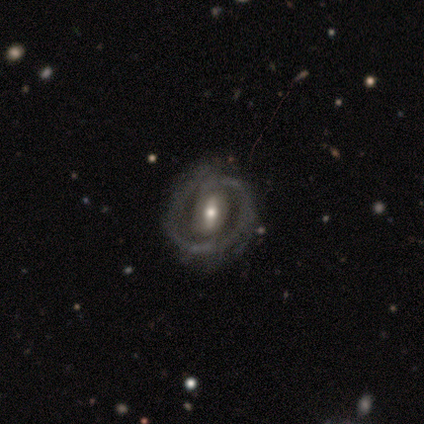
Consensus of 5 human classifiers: A featured or disk galaxy (100%) with a strong bar (60%), 1 (40%, tied with 2) tight (60%) spiral arms (100%) and a moderate central bulge (80%). Merging: none (60%).